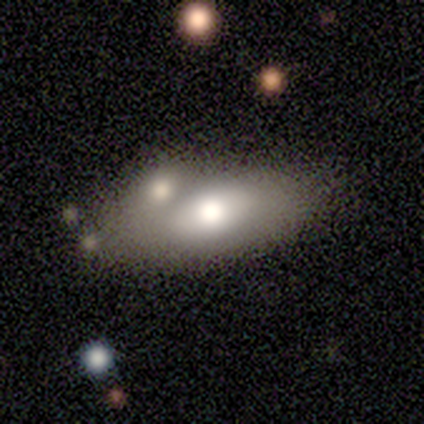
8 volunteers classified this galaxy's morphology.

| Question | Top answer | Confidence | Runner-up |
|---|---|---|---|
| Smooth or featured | smooth | 88% | featured or disk (12%) |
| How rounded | in between | 86% | cigar-shaped (14%) |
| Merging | none | 38% | tied: merger (38%) |